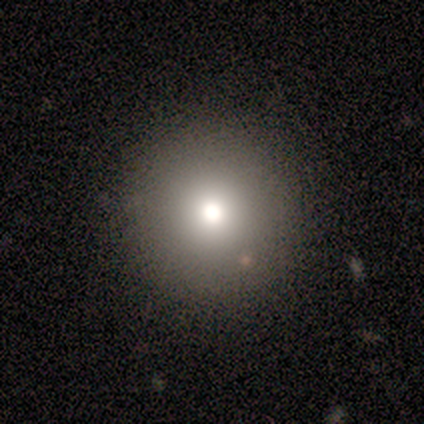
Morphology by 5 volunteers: smooth-or-featured: smooth: 100% | featured or disk: 0% | star or artifact: 0%
  how-rounded: round: 100% | in between: 0% | cigar-shaped: 0%
  merging: none: 80% | merger: 20% | minor disturbance: 0% | major disturbance: 0%